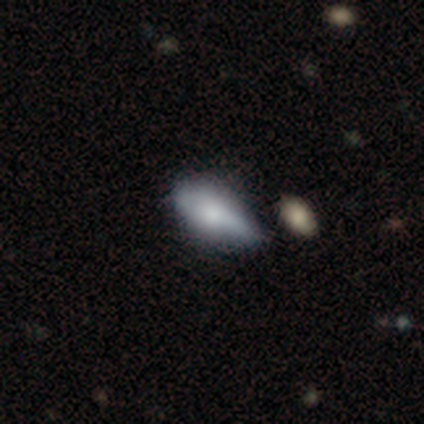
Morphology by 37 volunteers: Overall: smooth (76%). How rounded: in between (89%). Merging: minor disturbance (44%; none 25%).